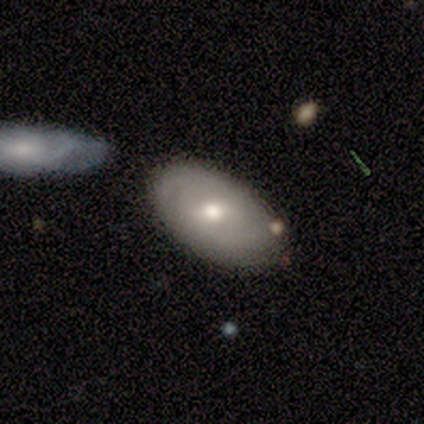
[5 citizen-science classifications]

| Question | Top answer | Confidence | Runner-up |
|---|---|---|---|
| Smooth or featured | featured or disk | 80% | star or artifact (20%) |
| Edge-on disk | no | 75% | yes (25%) |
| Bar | weak | 67% | no (33%) |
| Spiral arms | no | 100% | — |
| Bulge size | moderate | 67% | small (33%) |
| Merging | none | 100% | — |